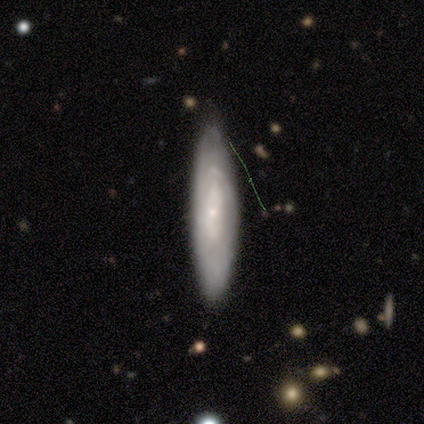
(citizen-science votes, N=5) This appears to be a featured or disk galaxy (60%) with no bar (100%), 1 (50%, tied with can't tell) tight (100%) spiral arms (67%) and a small central bulge (100%). Merging: none (80%).